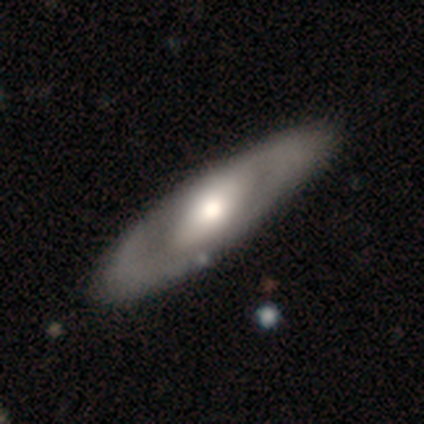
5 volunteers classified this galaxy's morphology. Smooth or featured?
  - featured or disk: 60% *
  - smooth: 40%
  - star or artifact: 0%
Edge-on disk?
  - no: 100% *
  - yes: 0%
Bar?
  - no: 100% *
  - strong: 0%
  - weak: 0%
Spiral arms?
  - no: 67% *
  - yes: 33%
Bulge size?
  - moderate: 67% *
  - large: 33%
  - dominant: 0%
  - small: 0%
  - none: 0%
Merging?
  - none: 80% *
  - minor disturbance: 20%
  - major disturbance: 0%
  - merger: 0%